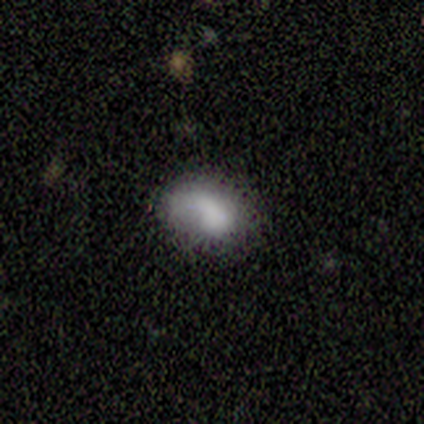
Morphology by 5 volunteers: type=smooth (40%, tied with featured or disk); roundness=in between (100%); merging=none (75%).